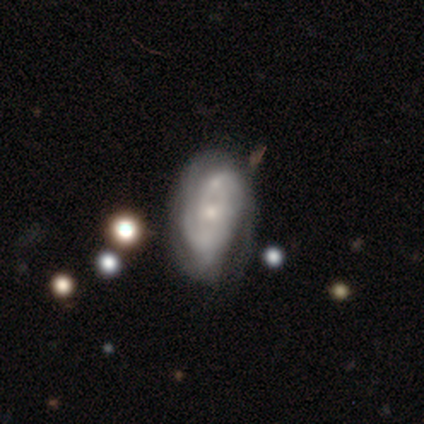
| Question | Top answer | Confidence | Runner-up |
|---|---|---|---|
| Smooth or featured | featured or disk | 79% | smooth (15%) |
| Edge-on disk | no | 97% | yes (3%) |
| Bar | weak | 43% | tied: no (43%) |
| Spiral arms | yes | 90% | no (10%) |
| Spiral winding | medium | 48% | tight (44%) |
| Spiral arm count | can't tell | 56% | 2 (30%) |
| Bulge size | small | 50% | moderate (40%) |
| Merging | none | 46% | minor disturbance (24%) |